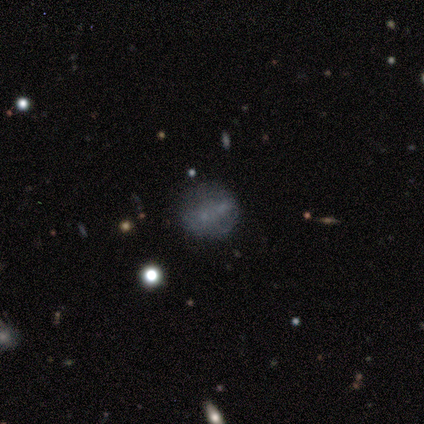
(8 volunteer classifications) Volunteers were most divided on "merging": none: 71%, merger: 29%, minor disturbance: 0%, major disturbance: 0%. More confident: how rounded — round (100%); smooth or featured — smooth (75%).